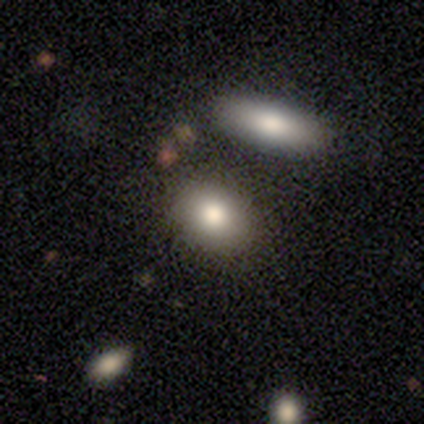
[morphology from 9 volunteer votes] Volunteers were most divided on "how rounded": in between: 88%, round: 12%, cigar-shaped: 0%. More confident: merging — none (100%); smooth or featured — smooth (89%).